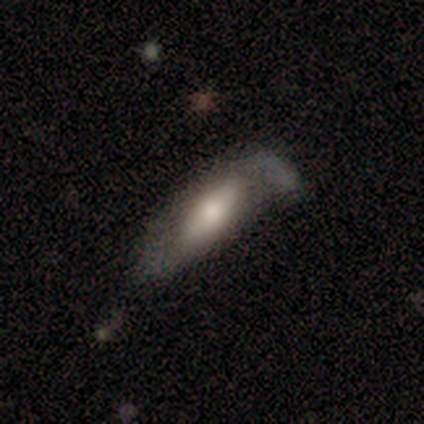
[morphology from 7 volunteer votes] This is likely a smooth galaxy (71%). How rounded: clearly in between (80%). Merging: marginally none (33%, tied with major disturbance and merger).